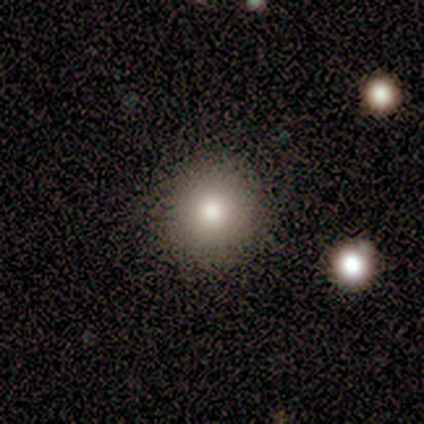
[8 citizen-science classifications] A smooth galaxy with no disk features (88%) that is round (100%).

Vote fractions:
- Smooth or featured? smooth: 88% / featured or disk: 12% / star or artifact: 0%
- How rounded? round: 100% / in between: 0% / cigar-shaped: 0%
- Merging? none: 75% / minor disturbance: 12% / merger: 12% / major disturbance: 0%